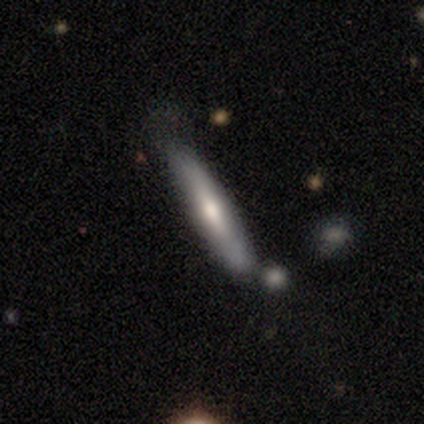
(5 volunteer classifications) Smooth or featured? 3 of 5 (60%) said featured or disk. Edge-on disk? 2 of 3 (67%) said yes. Edge-on bulge? 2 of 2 (100%) said none. Merging? 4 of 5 (80%) said none.